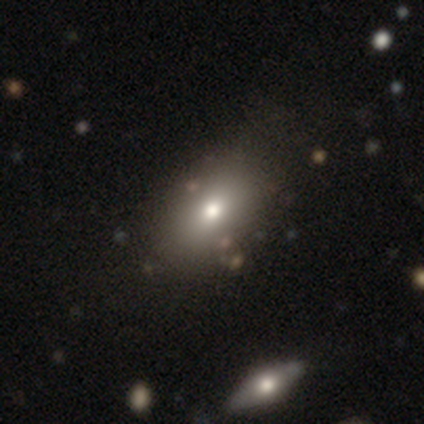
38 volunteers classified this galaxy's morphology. smooth-or-featured: smooth: 68% | star or artifact: 21% | featured or disk: 11%
  how-rounded: in between: 81% | round: 19% | cigar-shaped: 0%
  merging: none: 63% | minor disturbance: 10% | major disturbance: 7% | merger: 7%